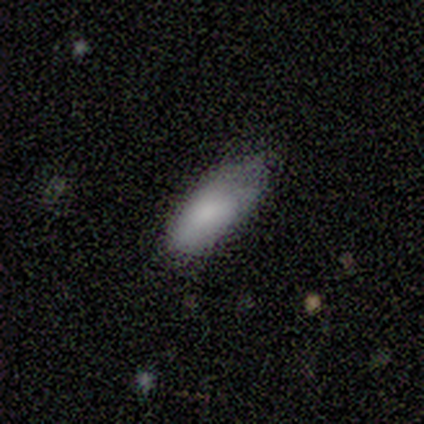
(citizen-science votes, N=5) This appears to be a smooth galaxy with no disk features (100%) that is in between round and cigar-shaped (80%). Merging: minor disturbance (80%).